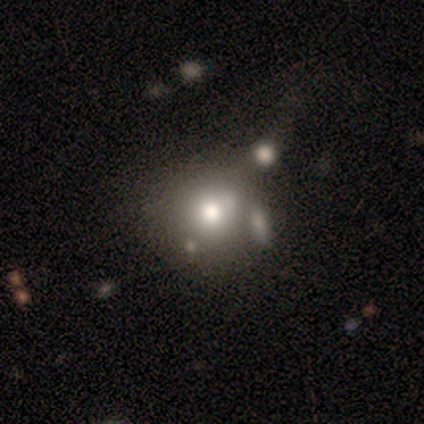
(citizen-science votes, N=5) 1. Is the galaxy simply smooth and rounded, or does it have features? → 100% smooth, 0% featured or disk, 0% star or artifact.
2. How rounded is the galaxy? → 100% round, 0% in between, 0% cigar-shaped.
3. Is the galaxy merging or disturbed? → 60% none, 40% minor disturbance, 0% major disturbance, 0% merger.